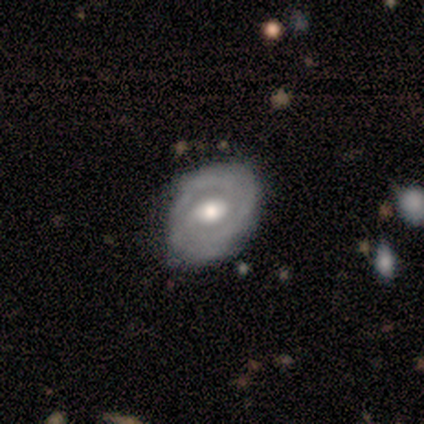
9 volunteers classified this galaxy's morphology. Smooth or featured? 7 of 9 (78%) said featured or disk. Edge-on disk? 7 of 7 (100%) said no. Bar? 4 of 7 (57%) said no. Spiral arms? 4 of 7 (57%) said no. Bulge size? 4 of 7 (57%) said large. Merging? 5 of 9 (56%) said none.